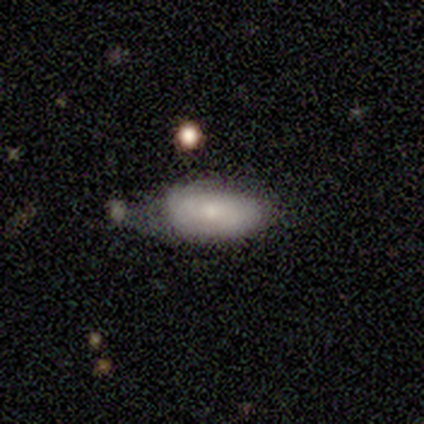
This appears to be a smooth galaxy with no disk features (80%) that is in between round and cigar-shaped (100%). Merging: minor disturbance (60%).